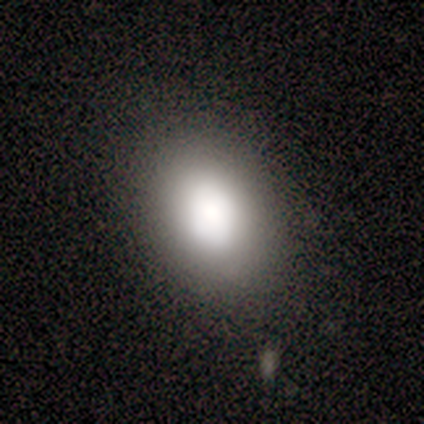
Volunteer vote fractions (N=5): Smooth or featured? smooth (80%)
How rounded? in between (100%)
Merging? none (75%)